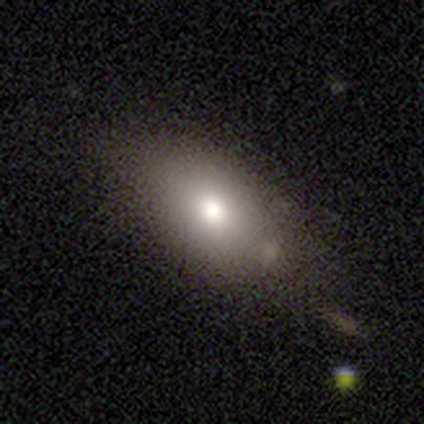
Smooth or featured? 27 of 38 (71%) said smooth. How rounded? 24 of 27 (89%) said in between. Merging? 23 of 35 (66%) said none.